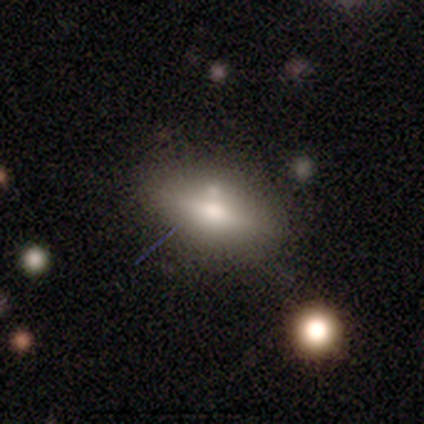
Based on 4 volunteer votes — Smooth or featured? smooth (75%)
How rounded? in between (67%)
Merging? none (100%)